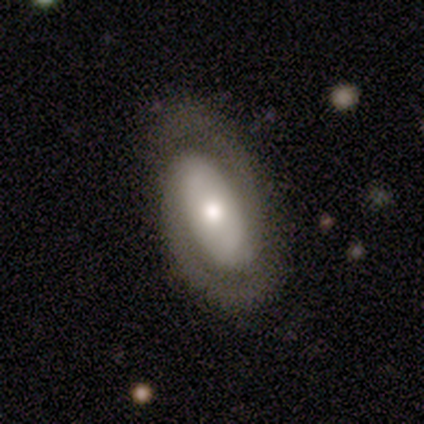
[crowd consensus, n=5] Morphology: type=featured or disk (80%); edge-on=no (100%); bar=no (50%); spiral arms=yes (100%); winding=tight (50%, tied with medium); arm count=2 (100%); bulge=moderate (75%); merging=none (100%).